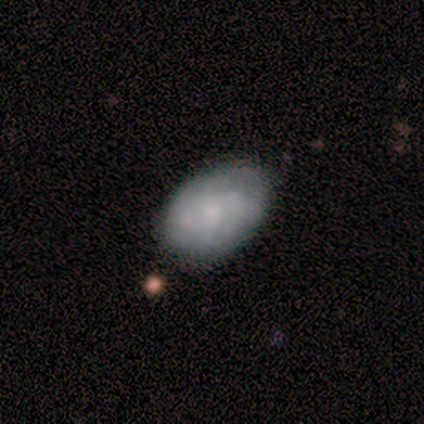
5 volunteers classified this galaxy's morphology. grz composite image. It shows a featured or disk galaxy (60%) with a strong bar (33%, tied with weak and no), 4 (50%, tied with can't tell) tight (50%, tied with medium) spiral arms (67%) and a small central bulge (67%). Merging: none (60%).